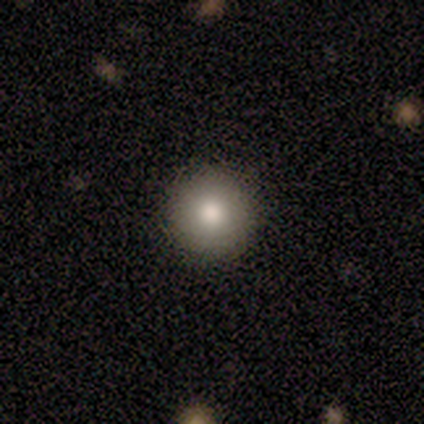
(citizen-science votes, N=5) Smooth or featured: smooth — 60% (featured or disk — 40%)
How rounded: round — 100%
Merging: none — 100%